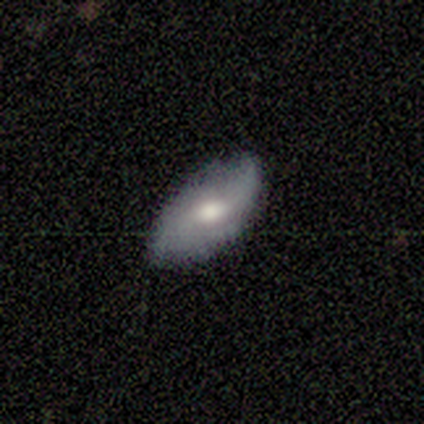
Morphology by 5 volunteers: smooth_or_featured: featured or disk (p=0.60) [alt: smooth p=0.20]
disk_edge_on: no (p=1.00)
bar: weak (p=0.67) [alt: no p=0.33]
has_spiral_arms: yes (p=0.67) [alt: no p=0.33]
spiral_winding: loose (p=1.00)
spiral_arm_count: 2 (p=1.00)
bulge_size: moderate (p=0.67) [alt: small p=0.33]
merging: none (p=0.75) [alt: minor disturbance p=0.25]